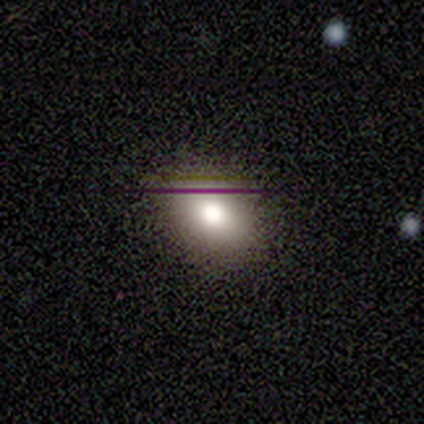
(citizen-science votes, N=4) Smooth or featured? smooth (100%)
How rounded? in between (100%)
Merging? none (100%)